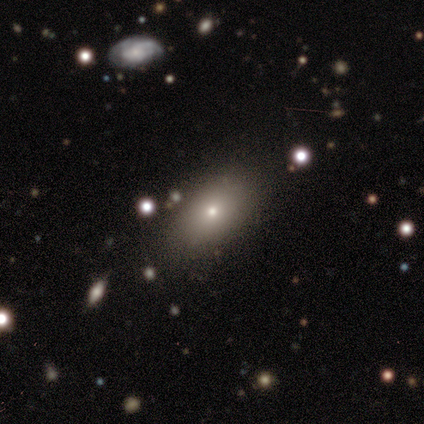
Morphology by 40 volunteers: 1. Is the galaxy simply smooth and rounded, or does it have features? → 70% smooth, 22% featured or disk, 8% star or artifact.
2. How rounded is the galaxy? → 89% in between, 7% round, 4% cigar-shaped.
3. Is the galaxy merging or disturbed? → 54% none, 8% minor disturbance, 0% major disturbance, 0% merger.